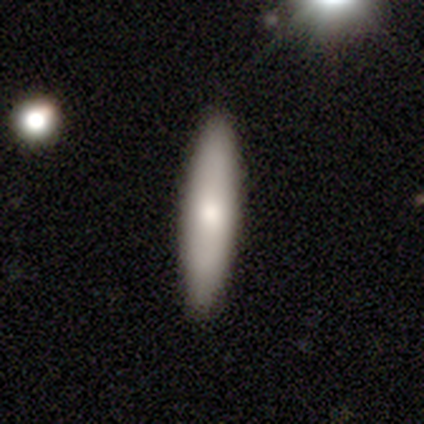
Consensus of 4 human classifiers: This appears to be a smooth galaxy with no disk features (75%) that is cigar-shaped (100%). Merging: none (100%).